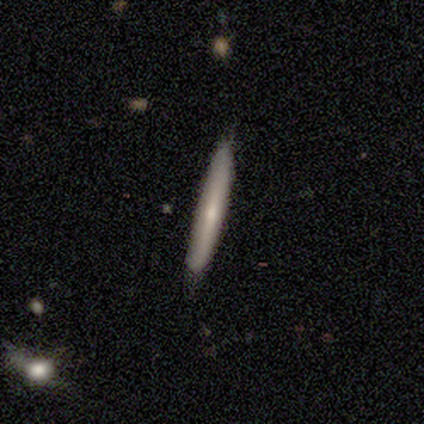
A featured or disk galaxy (60%) viewed edge-on (100%) with a rounded central bulge (67%). Merging: none (100%).